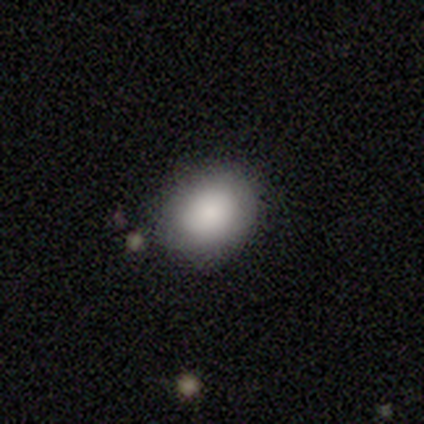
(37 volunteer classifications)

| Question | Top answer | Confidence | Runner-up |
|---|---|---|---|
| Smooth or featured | smooth | 92% | star or artifact (5%) |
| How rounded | round | 50% | tied: in between (50%) |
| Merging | none | 91% | minor disturbance (6%) |